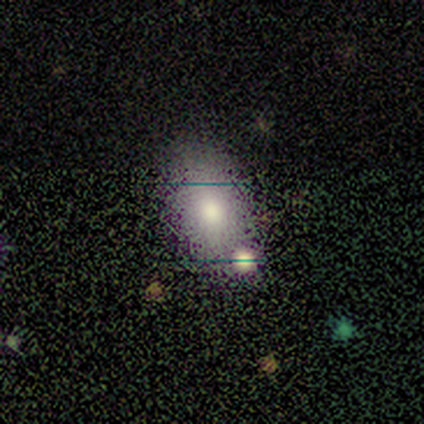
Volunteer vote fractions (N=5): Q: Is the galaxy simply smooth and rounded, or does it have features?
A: smooth — 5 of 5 (100%).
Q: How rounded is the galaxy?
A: in between — 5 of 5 (100%).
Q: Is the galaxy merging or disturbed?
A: none — 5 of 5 (100%).